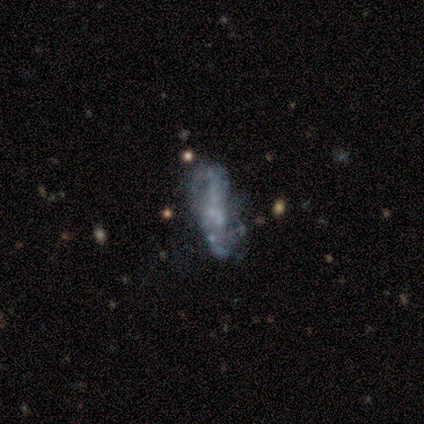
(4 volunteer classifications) Smooth or featured? star or artifact (75%)